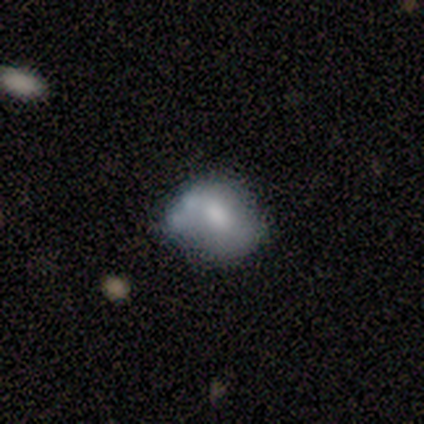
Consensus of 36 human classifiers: This appears to be a smooth galaxy with no disk features (69%) that is in between round and cigar-shaped (52%). Merging: none (43%).